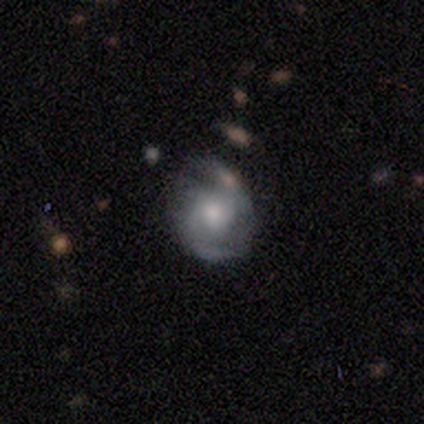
This appears to be a featured or disk galaxy (80%) with no bar (75%), 2 (50%, tied with can't tell) medium (50%, tied with loose) spiral arms (100%) and a small central bulge (75%). Merging: none (80%).